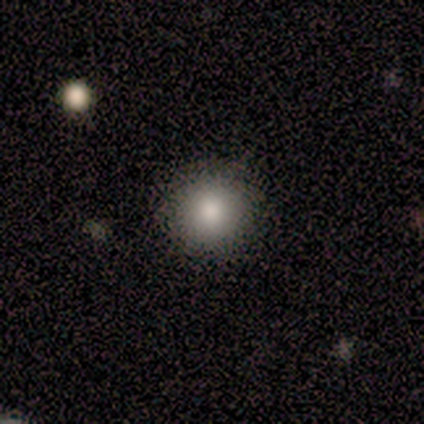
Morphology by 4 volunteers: A smooth galaxy with no disk features (100%) that is round (75%). Merging: none (100%).